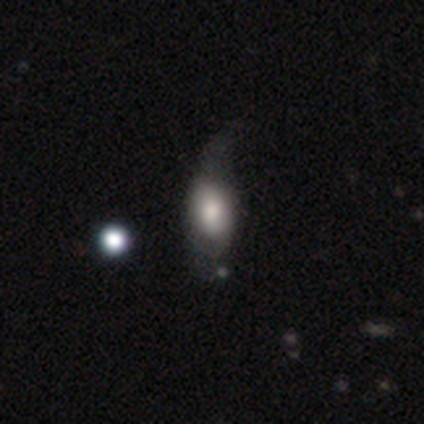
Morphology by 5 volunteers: A smooth galaxy with no disk features (60%) that is in between round and cigar-shaped (100%). Merging: major disturbance (50%).